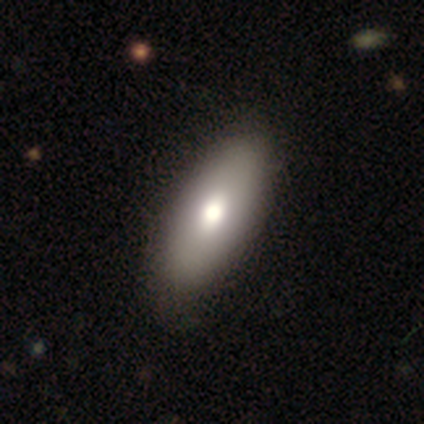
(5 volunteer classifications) Morphology: type=featured or disk (60%); edge-on=no (67%); bar=weak (50%, tied with no); spiral arms=no (100%); bulge=moderate (100%); merging=none (80%).